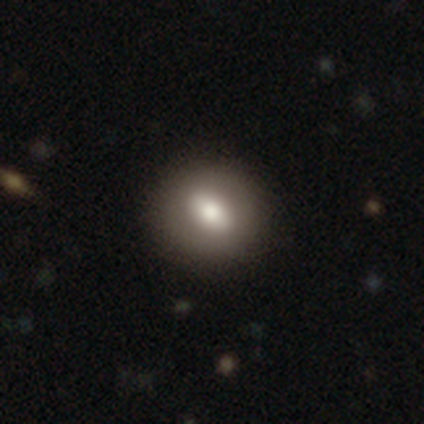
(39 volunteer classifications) smooth_or_featured: smooth (p=0.74) [alt: featured or disk p=0.21]
how_rounded: in between (p=0.52) [alt: round p=0.48]
merging: none (p=0.89) [alt: minor disturbance p=0.05]